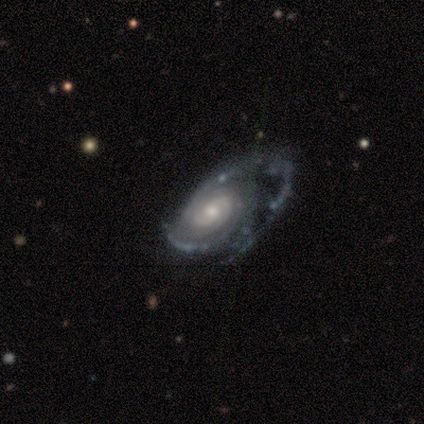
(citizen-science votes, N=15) smooth-or-featured: featured or disk: 80% | smooth: 13% | star or artifact: 7%
  disk-edge-on: no: 100% | yes: 0%
    bar: no: 75% | weak: 17% | strong: 8%
    has-spiral-arms: yes: 100% | no: 0%
      spiral-winding: medium: 50% | tight: 42% | loose: 8%
      spiral-arm-count: 2: 33% (tied) | can't tell: 33% (tied) | 1: 8% | 3: 8% | 4: 8% | more than 4: 8%
    bulge-size: moderate: 50% | small: 42% | large: 8% | dominant: 0% | none: 0%
  merging: major disturbance: 50% | none: 21% | minor disturbance: 21% | merger: 7%